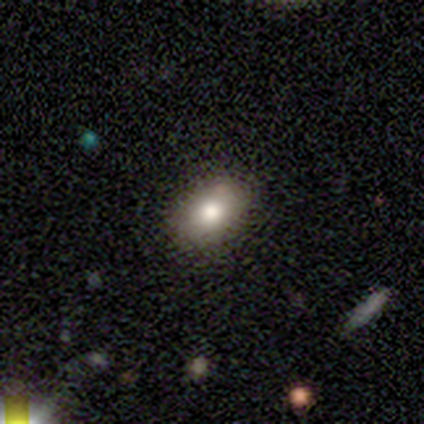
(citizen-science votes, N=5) smooth_or_featured: smooth (p=0.40) [tied with: featured or disk p=0.40]
how_rounded: in between (p=1.00)
merging: none (p=1.00)